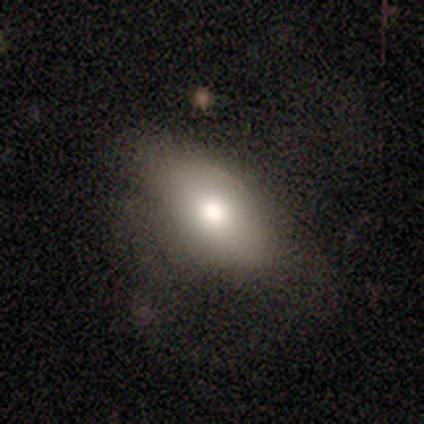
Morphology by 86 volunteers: A smooth galaxy with no disk features (67%) that is in between round and cigar-shaped (84%).

Vote fractions:
- Smooth or featured? smooth: 67% / featured or disk: 24% / star or artifact: 8%
- How rounded? in between: 84% / cigar-shaped: 10% / round: 5%
- Merging? none: 53% / minor disturbance: 27% / major disturbance: 20% / merger: 0%